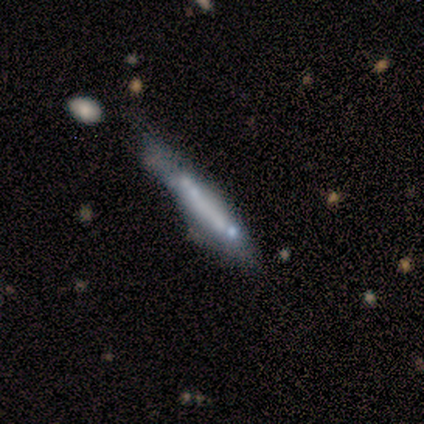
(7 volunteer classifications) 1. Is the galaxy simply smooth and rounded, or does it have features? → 57% smooth, 43% featured or disk, 0% star or artifact.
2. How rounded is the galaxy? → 100% cigar-shaped, 0% round, 0% in between.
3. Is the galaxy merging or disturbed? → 43% none (tied), 43% minor disturbance (tied), 14% merger, 0% major disturbance.